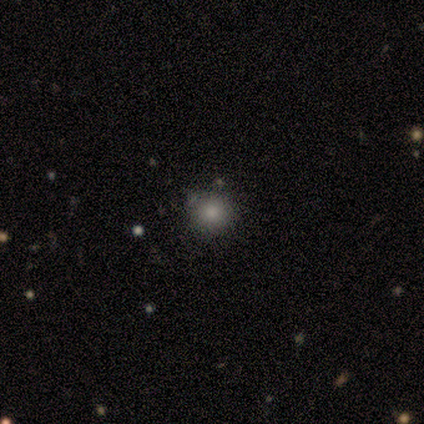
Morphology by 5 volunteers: Smooth or featured?
  - smooth: 100% *
  - featured or disk: 0%
  - star or artifact: 0%
How rounded?
  - round: 100% *
  - in between: 0%
  - cigar-shaped: 0%
Merging?
  - none: 100% *
  - minor disturbance: 0%
  - major disturbance: 0%
  - merger: 0%